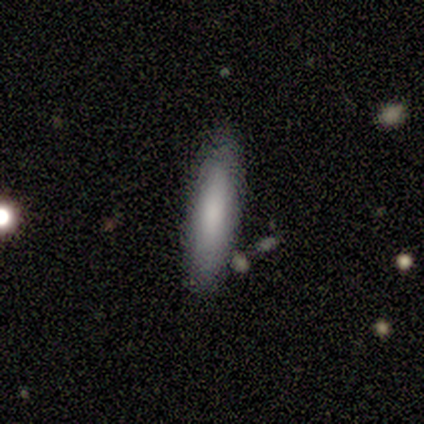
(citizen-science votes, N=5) smooth_or_featured: smooth (p=1.00)
how_rounded: cigar-shaped (p=1.00)
merging: none (p=0.60) [alt: minor disturbance p=0.20]